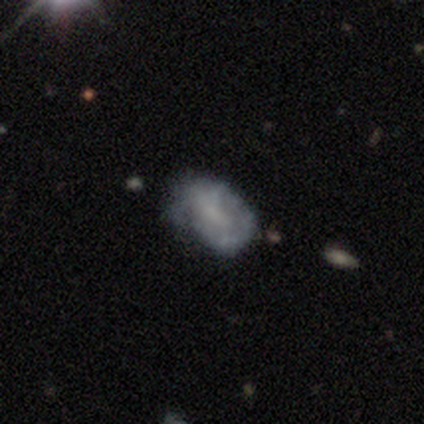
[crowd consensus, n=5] A smooth galaxy with no disk features (60%) that is in between round and cigar-shaped (100%).

Vote fractions:
- Smooth or featured? smooth: 60% / featured or disk: 40% / star or artifact: 0%
- How rounded? in between: 100% / round: 0% / cigar-shaped: 0%
- Merging? minor disturbance: 60% / none: 20% / major disturbance: 20% / merger: 0%